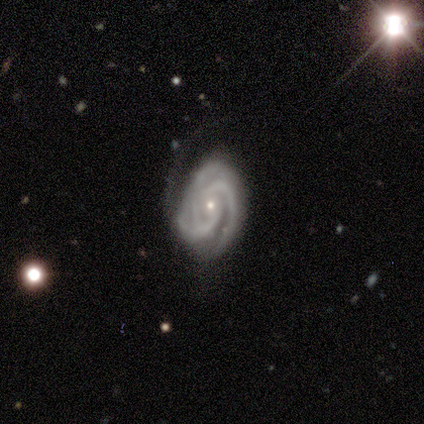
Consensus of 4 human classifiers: This is likely a featured or disk galaxy (75%). It is clearly not viewed edge-on (100%). Bar: likely no (67%). Spiral arm pattern: clearly yes (100%). Spiral arm count: clearly 3 (100%). Spiral winding: likely tight (67%). Central bulge: clearly small (100%). Merging: possibly minor disturbance (50%).